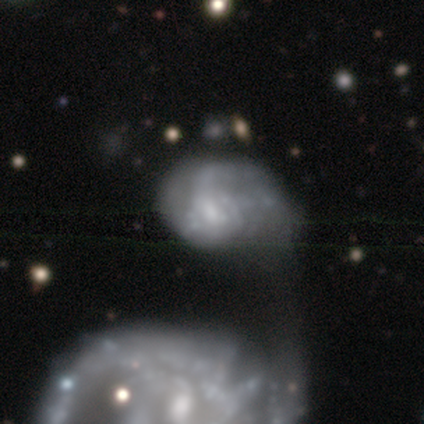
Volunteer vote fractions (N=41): smooth_or_featured: featured or disk (p=0.63) [alt: smooth p=0.29]
disk_edge_on: no (p=0.96) [alt: yes p=0.04]
bar: no (p=0.56) [alt: weak p=0.36]
has_spiral_arms: no (p=0.56) [alt: yes p=0.44]
bulge_size: small (p=0.44) [alt: moderate p=0.32]
merging: merger (p=0.42) [alt: major disturbance p=0.32]